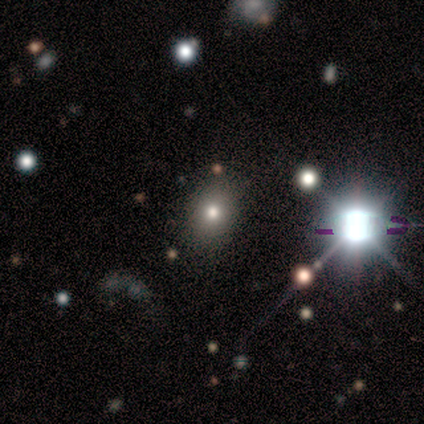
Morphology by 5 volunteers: This is marginally a smooth galaxy (40%, tied with star or artifact). How rounded: clearly round (100%). Merging: likely none (67%).